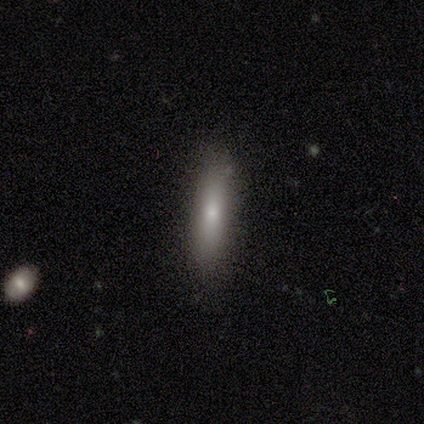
smooth-or-featured: smooth: 50% | featured or disk: 25% | star or artifact: 25%
  how-rounded: in between: 50% (tied) | cigar-shaped: 50% (tied) | round: 0%
  merging: none: 100% | minor disturbance: 0% | major disturbance: 0% | merger: 0%